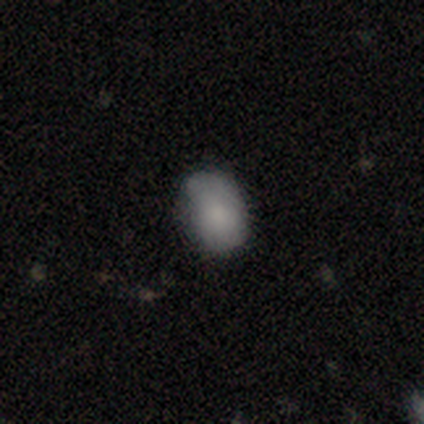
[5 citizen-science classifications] Volunteers were most divided on "merging": none: 60%, minor disturbance: 20%, major disturbance: 20%, merger: 0%. More confident: smooth or featured — smooth (80%); how rounded — in between (75%).